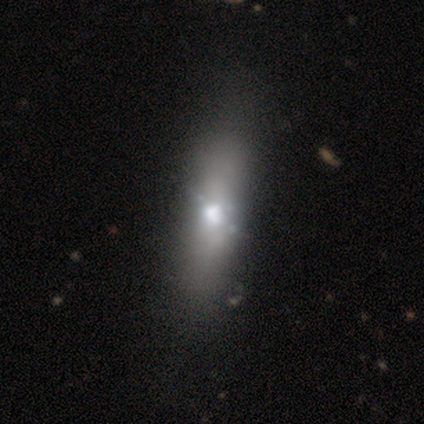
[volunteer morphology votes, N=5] smooth-or-featured: smooth: 40% (tied) | featured or disk: 40% (tied) | star or artifact: 20%
  how-rounded: in between: 100% | round: 0% | cigar-shaped: 0%
  merging: none: 75% | minor disturbance: 25% | major disturbance: 0% | merger: 0%